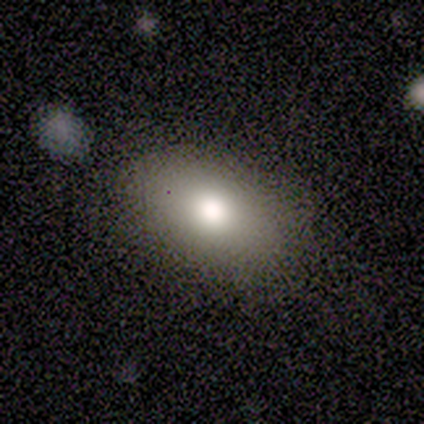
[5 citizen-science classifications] This appears to be a smooth galaxy with no disk features (60%) that is in between round and cigar-shaped (100%). Merging: none (100%).